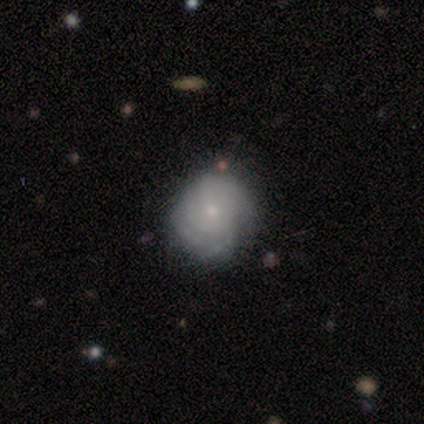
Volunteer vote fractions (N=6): This is possibly a smooth galaxy (50%, tied with featured or disk). How rounded: likely round (67%). Merging: clearly none (100%).